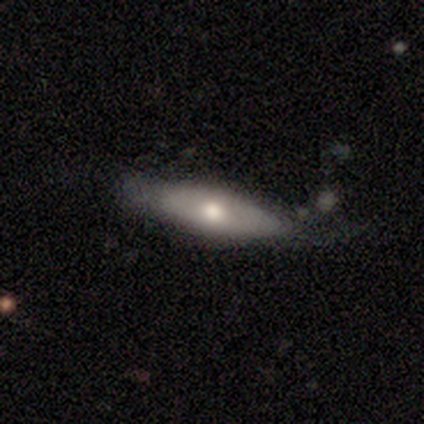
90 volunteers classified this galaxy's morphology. A smooth galaxy with no disk features (50%) that is cigar-shaped (56%). Merging: none (58%).